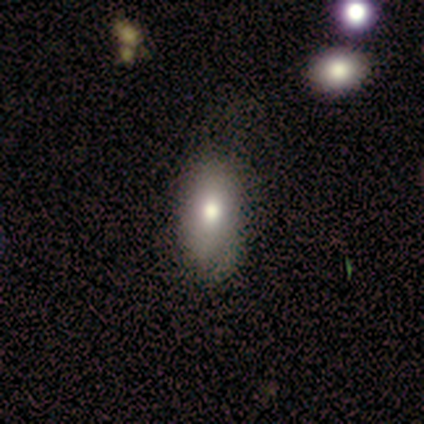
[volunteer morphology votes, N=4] Q: Smooth or featured?
A: smooth (75%); runner-up: featured or disk (25%)
Q: How rounded?
A: in between (100%)
Q: Merging?
A: none (50%); runner-up: minor disturbance (25%)